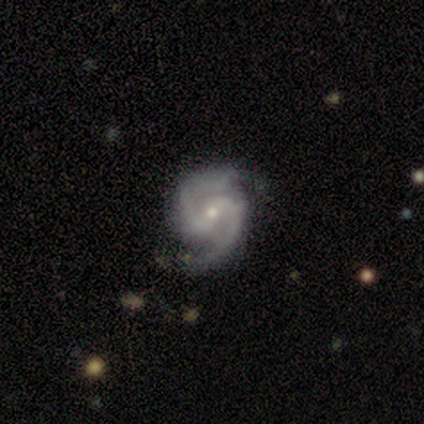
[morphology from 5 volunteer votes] Volunteers were most divided on "bar" (2-way tie): weak: 40%, no: 40%, strong: 20%. More confident: smooth or featured — featured or disk (100%); edge-on disk — no (100%); spiral arms — yes (100%); spiral arm count — 2 (80%); bulge size — small (80%); merging — none (80%); spiral winding — tight (60%).